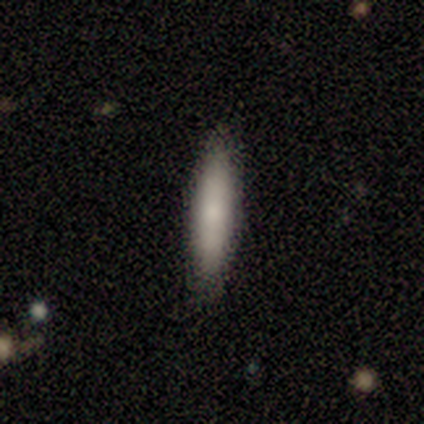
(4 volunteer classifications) Morphology: type=smooth (50%, tied with featured or disk); roundness=in between (50%, tied with cigar-shaped); merging=none (100%).